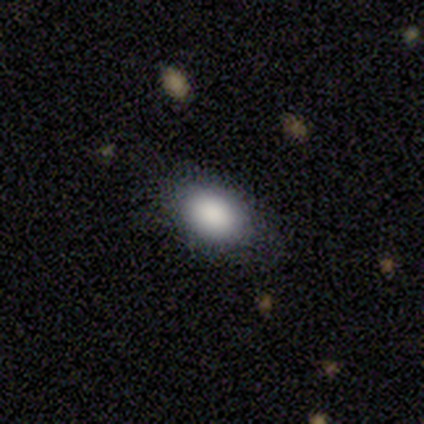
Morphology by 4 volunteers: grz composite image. It shows a smooth galaxy with no disk features (100%) that is in between round and cigar-shaped (100%). Merging: none (75%).